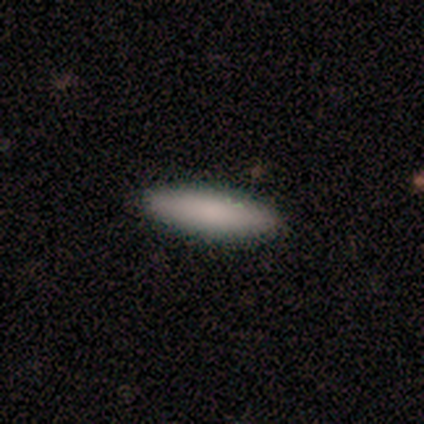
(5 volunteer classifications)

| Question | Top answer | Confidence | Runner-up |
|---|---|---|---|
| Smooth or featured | smooth | 80% | featured or disk (20%) |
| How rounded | in between | 50% | tied: cigar-shaped (50%) |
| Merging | none | 100% | — |